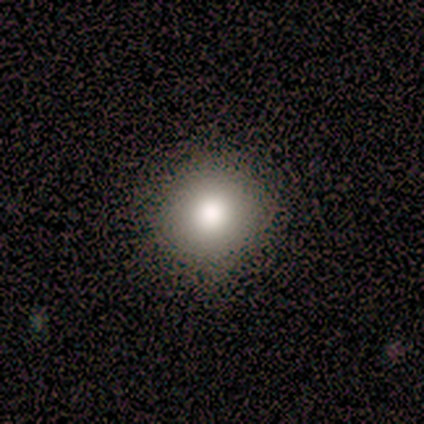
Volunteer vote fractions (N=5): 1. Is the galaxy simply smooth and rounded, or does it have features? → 80% smooth, 20% star or artifact, 0% featured or disk.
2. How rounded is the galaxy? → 100% round, 0% in between, 0% cigar-shaped.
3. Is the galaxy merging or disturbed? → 75% none, 25% minor disturbance, 0% major disturbance, 0% merger.